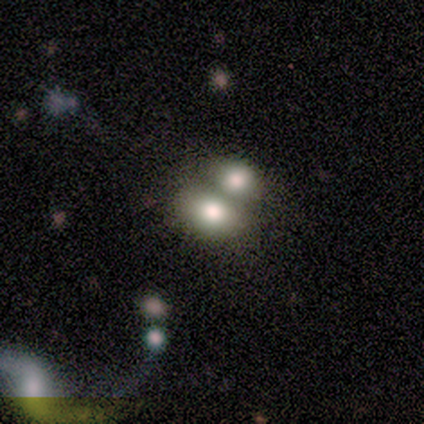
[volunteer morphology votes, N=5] A smooth galaxy with no disk features (60%) that is in between round and cigar-shaped (100%).

Vote fractions:
- Smooth or featured? smooth: 60% / featured or disk: 20% / star or artifact: 20%
- How rounded? in between: 100% / round: 0% / cigar-shaped: 0%
- Merging? none: 50% (tied) / merger: 50% (tied) / minor disturbance: 0% / major disturbance: 0%